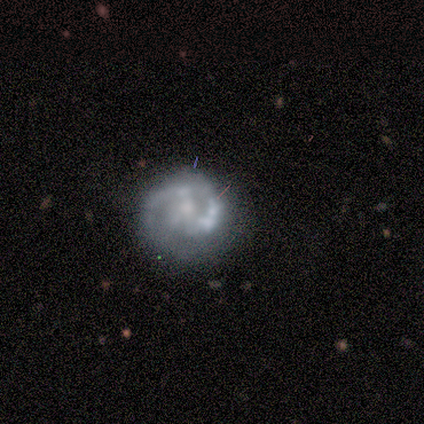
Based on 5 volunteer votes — Smooth or featured? featured or disk (60%)
Edge-on disk? no (100%)
Bar? strong (33%, tied with weak and no)
Spiral arms? yes (67%)
Spiral winding? tight (100%)
Spiral arm count? 2 (100%)
Bulge size? small (100%)
Merging? none (75%)